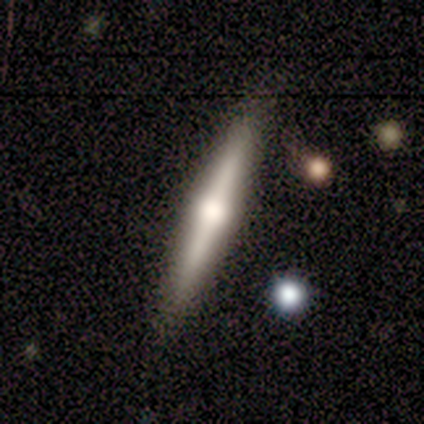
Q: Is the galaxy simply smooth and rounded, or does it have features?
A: featured or disk — 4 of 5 (80%).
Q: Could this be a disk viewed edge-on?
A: yes — 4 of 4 (100%).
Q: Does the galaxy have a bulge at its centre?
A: rounded — 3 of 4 (75%).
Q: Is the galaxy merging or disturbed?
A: none — 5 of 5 (100%).